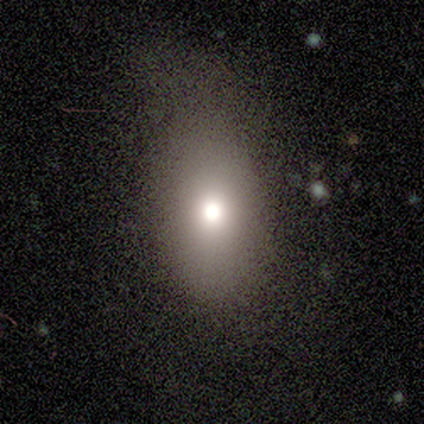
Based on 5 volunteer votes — This is likely a star or artifact rather than a galaxy (60%).